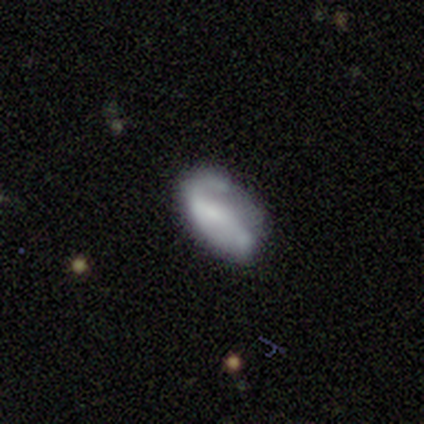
smooth-or-featured: featured or disk: 63% | smooth: 32% | star or artifact: 5%
  disk-edge-on: no: 100% | yes: 0%
    bar: no: 58% | weak: 33% | strong: 8%
    has-spiral-arms: yes: 62% | no: 38%
      spiral-winding: tight: 40% | loose: 33% | medium: 27%
      spiral-arm-count: 2: 47% | 1: 40% | can't tell: 13% | 3: 0% | 4: 0% | more than 4: 0%
    bulge-size: none: 58% | small: 21% | large: 12% | moderate: 8% | dominant: 0%
  merging: minor disturbance: 44% | none: 25% | major disturbance: 25% | merger: 6%